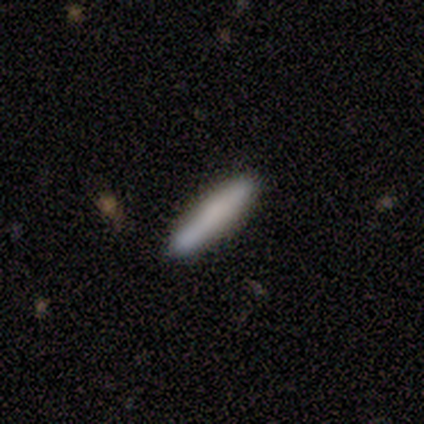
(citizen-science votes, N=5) Volunteers were most divided on "smooth or featured": smooth: 60%, featured or disk: 40%, star or artifact: 0%. More confident: how rounded — cigar-shaped (100%); merging — none (80%).